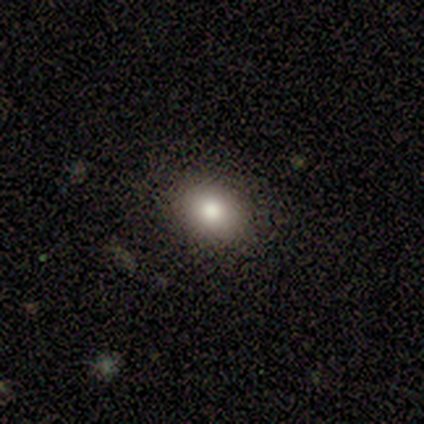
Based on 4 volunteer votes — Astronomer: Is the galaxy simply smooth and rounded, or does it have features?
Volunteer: smooth — 100%.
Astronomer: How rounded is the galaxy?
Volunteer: round — 75%.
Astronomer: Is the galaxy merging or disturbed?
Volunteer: none — 50%.